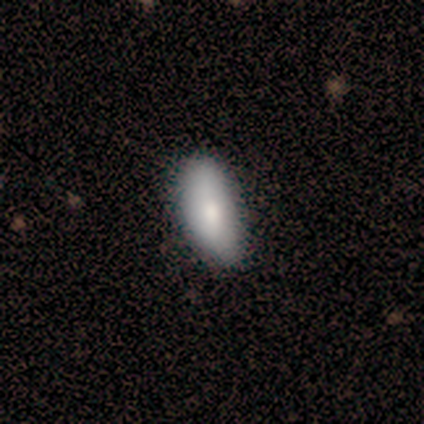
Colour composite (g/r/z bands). It shows a smooth galaxy with no disk features (100%) that is in between round and cigar-shaped (100%). Merging: none (100%).